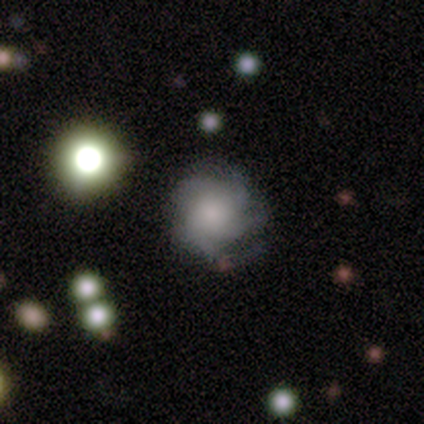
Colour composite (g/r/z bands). It shows a featured or disk galaxy (100%) with no bar (100%), medium (57%) spiral arms (100%) and a moderate central bulge (43%, tied with small). Merging: none (75%).